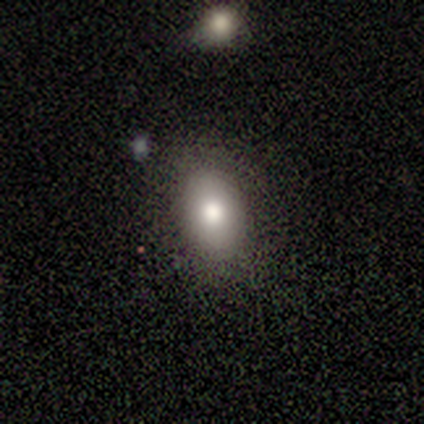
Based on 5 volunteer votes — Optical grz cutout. It shows a smooth galaxy with no disk features (80%) that is in between round and cigar-shaped (75%). Merging: none (100%).